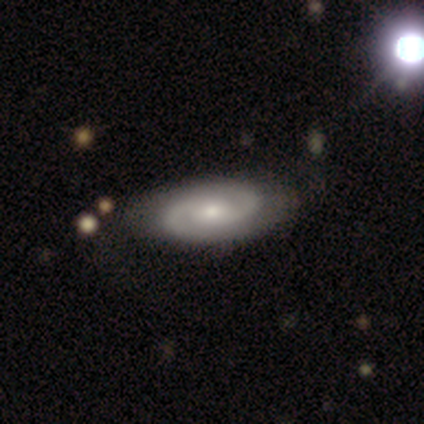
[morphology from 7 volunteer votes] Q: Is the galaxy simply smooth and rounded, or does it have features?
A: featured or disk — 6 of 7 (86%).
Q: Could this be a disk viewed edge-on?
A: no — 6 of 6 (100%).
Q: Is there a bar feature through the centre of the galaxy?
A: no — 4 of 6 (67%).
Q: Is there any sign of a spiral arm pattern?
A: yes — 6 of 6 (100%).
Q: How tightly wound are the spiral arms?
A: tight — 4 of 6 (67%).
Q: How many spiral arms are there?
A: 2 — 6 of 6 (100%).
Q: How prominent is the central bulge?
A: small — 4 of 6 (67%).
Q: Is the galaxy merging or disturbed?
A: none — 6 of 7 (86%).